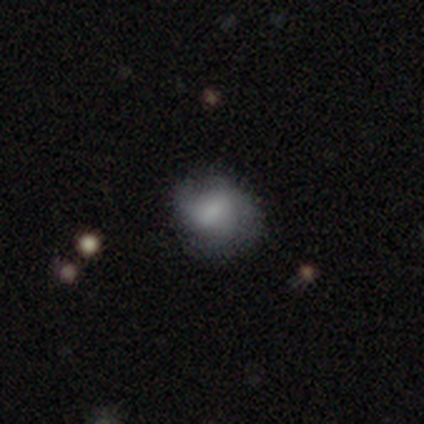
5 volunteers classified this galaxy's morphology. This appears to be a smooth galaxy with no disk features (80%) that is round (75%). Merging: none (100%).